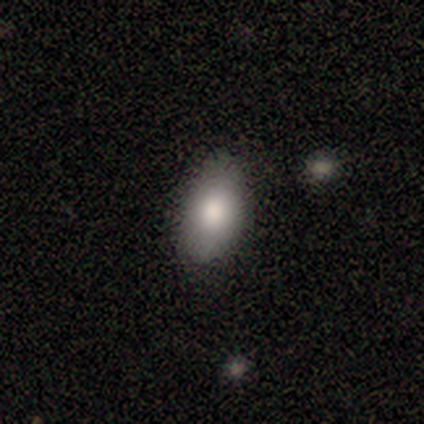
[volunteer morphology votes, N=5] Q: Smooth or featured?
A: smooth (80%); runner-up: star or artifact (20%)
Q: How rounded?
A: in between (100%)
Q: Merging?
A: none (75%); runner-up: minor disturbance (25%)